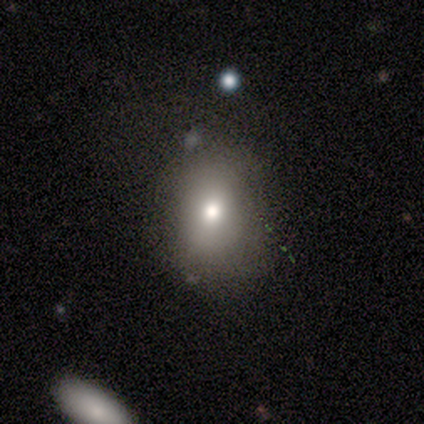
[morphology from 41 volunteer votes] This appears to be a smooth galaxy with no disk features (54%) that is round (55%). Merging: none (82%).